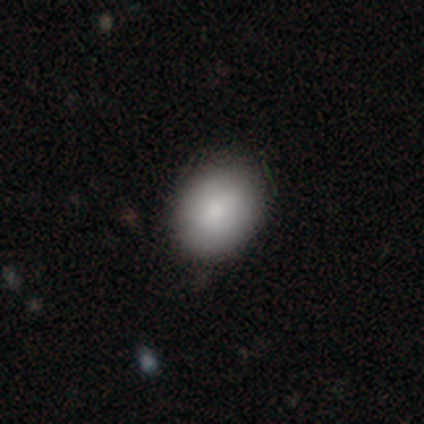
Smooth or featured?
  - smooth: 80% *
  - featured or disk: 10%
  - star or artifact: 10%
How rounded?
  - in between: 67% *
  - round: 33%
  - cigar-shaped: 0%
Merging?
  - none: 42% *
  - minor disturbance: 7%
  - major disturbance: 3%
  - merger: 3%